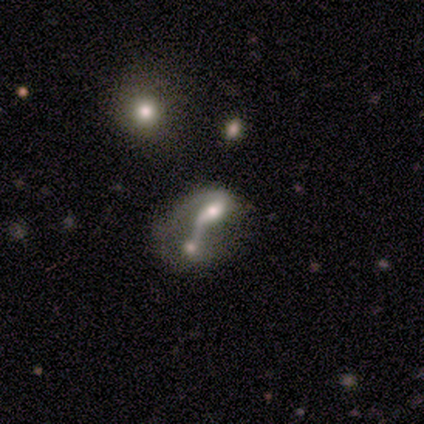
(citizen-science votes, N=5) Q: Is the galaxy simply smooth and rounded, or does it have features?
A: featured or disk — 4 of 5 (80%).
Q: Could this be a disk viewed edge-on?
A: no — 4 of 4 (100%).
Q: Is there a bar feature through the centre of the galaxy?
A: no — 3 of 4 (75%).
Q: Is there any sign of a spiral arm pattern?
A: yes — 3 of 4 (75%).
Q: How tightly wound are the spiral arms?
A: tight — 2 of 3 (67%).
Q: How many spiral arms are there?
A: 2 — 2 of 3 (67%).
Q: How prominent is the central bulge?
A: small — 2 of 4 (50%).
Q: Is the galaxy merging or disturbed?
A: merger — 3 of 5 (60%).